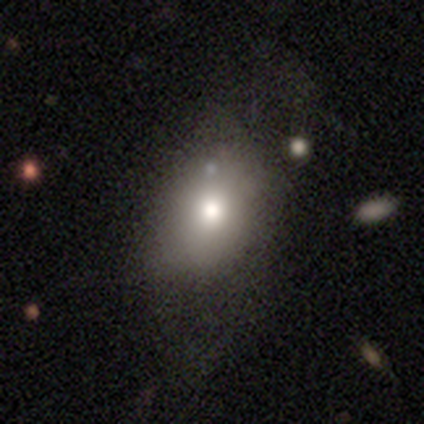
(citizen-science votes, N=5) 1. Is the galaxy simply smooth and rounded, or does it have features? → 80% smooth, 20% star or artifact, 0% featured or disk.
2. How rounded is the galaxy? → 100% in between, 0% round, 0% cigar-shaped.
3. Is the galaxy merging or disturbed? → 100% minor disturbance, 0% none, 0% major disturbance, 0% merger.